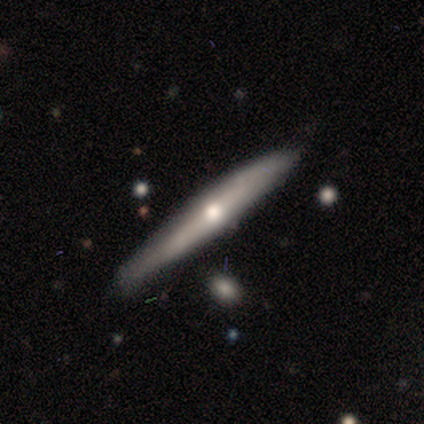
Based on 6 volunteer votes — smooth 50% (tied), featured or disk 50% (tied), star or artifact 0%. Down the decision tree: how rounded — cigar-shaped (100%); merging — none (83%).